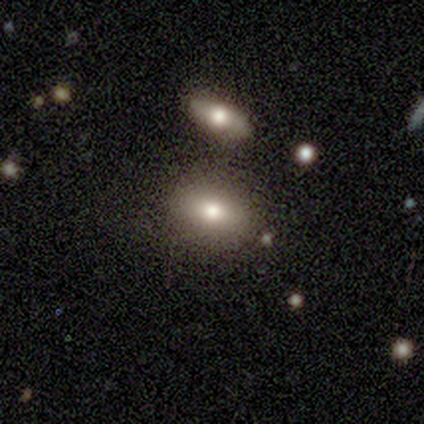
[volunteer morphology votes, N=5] This appears to be a smooth galaxy with no disk features (100%) that is in between round and cigar-shaped (100%). Merging: none (80%).